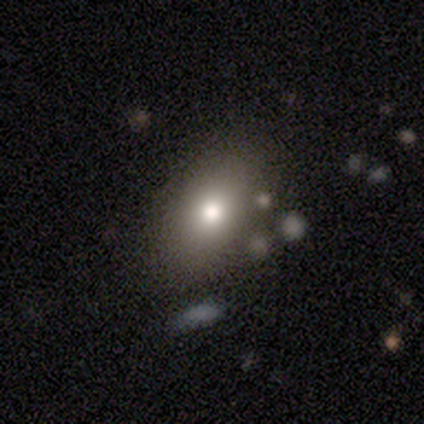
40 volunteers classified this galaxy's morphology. Smooth or featured: smooth — 90% (star or artifact — 10%)
How rounded: in between — 92% (round — 8%)
Merging: none — 69% (merger — 8%)